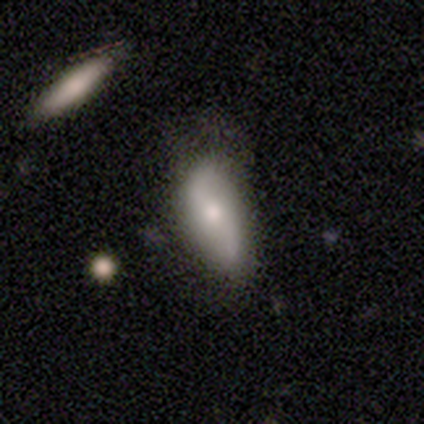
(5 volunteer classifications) smooth-or-featured: smooth: 60% | featured or disk: 40% | star or artifact: 0%
  how-rounded: in between: 100% | round: 0% | cigar-shaped: 0%
  merging: none: 40% (tied) | minor disturbance: 40% (tied) | major disturbance: 20% | merger: 0%